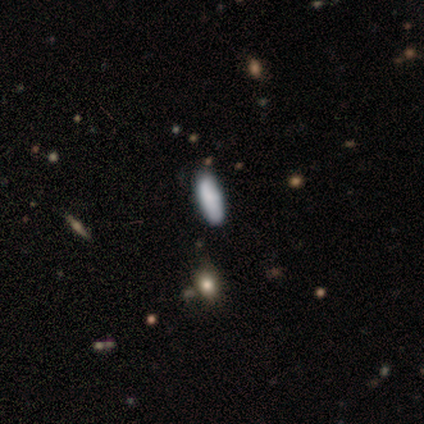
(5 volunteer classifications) A smooth galaxy with no disk features (100%) that is in between round and cigar-shaped (100%).

Vote fractions:
- Smooth or featured? smooth: 100% / featured or disk: 0% / star or artifact: 0%
- How rounded? in between: 100% / round: 0% / cigar-shaped: 0%
- Merging? none: 60% / minor disturbance: 20% / merger: 20% / major disturbance: 0%